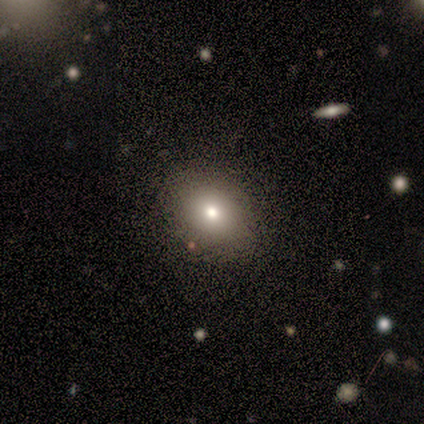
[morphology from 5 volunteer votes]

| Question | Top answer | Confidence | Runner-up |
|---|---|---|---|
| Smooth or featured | featured or disk | 60% | smooth (40%) |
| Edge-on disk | no | 100% | — |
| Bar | no | 100% | — |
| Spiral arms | no | 100% | — |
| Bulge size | moderate | 100% | — |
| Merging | none | 100% | — |